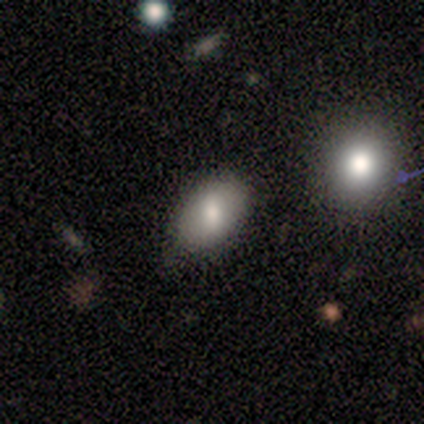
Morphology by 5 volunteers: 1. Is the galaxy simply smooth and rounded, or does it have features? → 100% smooth, 0% featured or disk, 0% star or artifact.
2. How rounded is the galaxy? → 80% in between, 20% round, 0% cigar-shaped.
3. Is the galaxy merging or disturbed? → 80% none, 20% merger, 0% minor disturbance, 0% major disturbance.